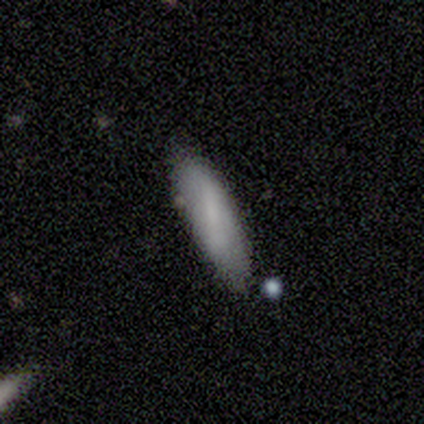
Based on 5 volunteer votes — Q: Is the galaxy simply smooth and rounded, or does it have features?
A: smooth — 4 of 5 (80%).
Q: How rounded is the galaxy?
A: cigar-shaped — 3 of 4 (75%).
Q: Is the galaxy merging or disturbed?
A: none — 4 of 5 (80%).